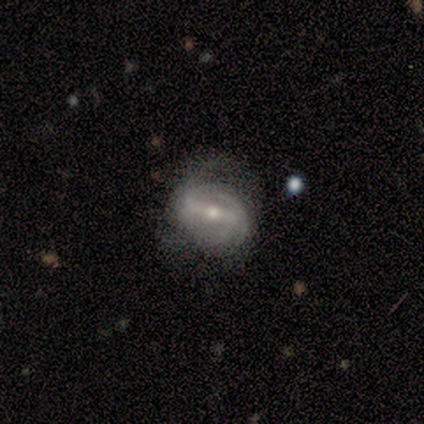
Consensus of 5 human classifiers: smooth_or_featured: featured or disk (p=0.80) [alt: smooth p=0.20]
disk_edge_on: no (p=1.00)
bar: strong (p=1.00)
has_spiral_arms: yes (p=0.75) [alt: no p=0.25]
spiral_winding: tight (p=0.33) [tied with: medium p=0.33, loose p=0.33]
spiral_arm_count: 2 (p=1.00)
bulge_size: small (p=0.75) [alt: moderate p=0.25]
merging: none (p=0.40) [tied with: major disturbance p=0.40]